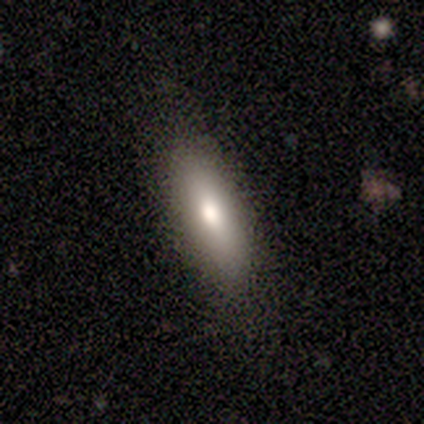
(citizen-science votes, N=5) A smooth galaxy with no disk features (80%) that is in between round and cigar-shaped (50%, tied with cigar-shaped). Merging: none (80%).